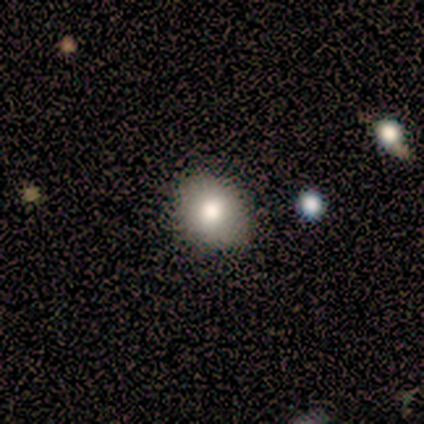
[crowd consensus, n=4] smooth 75%, featured or disk 25%, star or artifact 0%. Down the decision tree: how rounded — round (67%); merging — none (50%).